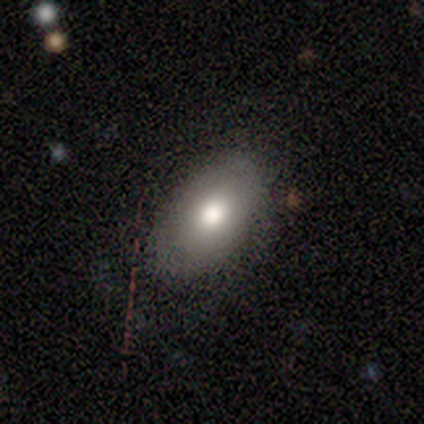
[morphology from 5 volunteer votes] A smooth galaxy with no disk features (80%) that is in between round and cigar-shaped (75%).

Vote fractions:
- Smooth or featured? smooth: 80% / star or artifact: 20% / featured or disk: 0%
- How rounded? in between: 75% / round: 25% / cigar-shaped: 0%
- Merging? none: 75% / minor disturbance: 25% / major disturbance: 0% / merger: 0%